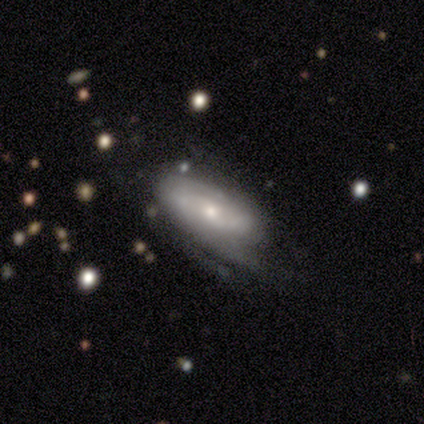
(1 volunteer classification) smooth_or_featured: featured or disk (p=1.00)
disk_edge_on: no (p=1.00)
bar: no (p=1.00)
has_spiral_arms: no (p=1.00)
bulge_size: small (p=1.00)
merging: minor disturbance (p=1.00)